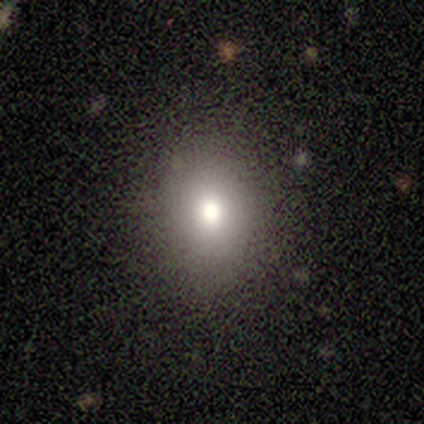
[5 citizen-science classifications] smooth_or_featured: smooth (p=0.80) [alt: featured or disk p=0.20]
how_rounded: in between (p=0.75) [alt: round p=0.25]
merging: none (p=1.00)